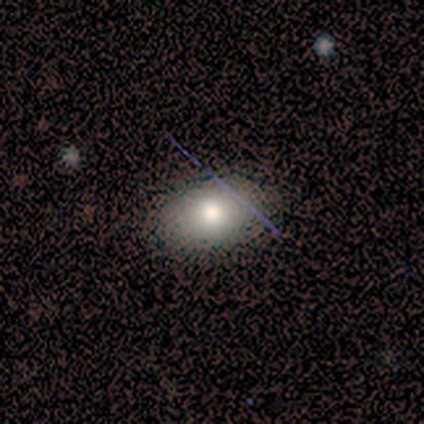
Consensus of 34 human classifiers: Overall: smooth (71%). How rounded: in between (92%). Merging: none (83%).